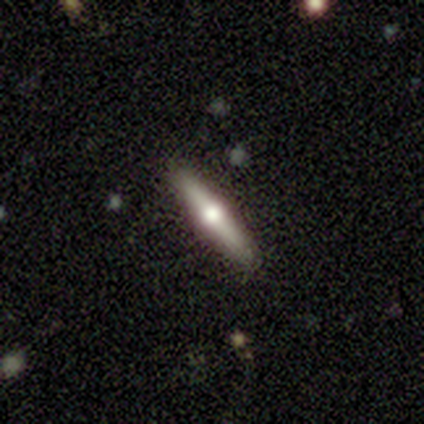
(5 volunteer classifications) A featured or disk galaxy (60%) viewed edge-on (100%) with a rounded central bulge (100%).

Vote fractions:
- Smooth or featured? featured or disk: 60% / smooth: 40% / star or artifact: 0%
- Edge-on disk? yes: 100% / no: 0%
- Edge-on bulge? rounded: 100% / boxy: 0% / none: 0%
- Merging? none: 80% / minor disturbance: 20% / major disturbance: 0% / merger: 0%